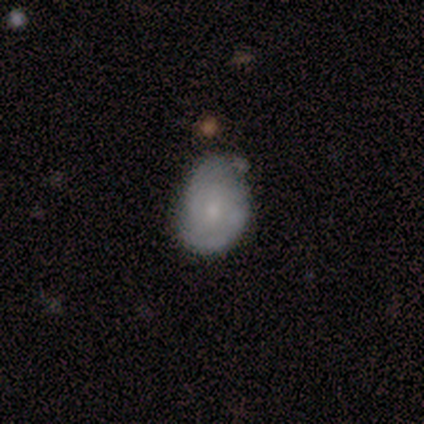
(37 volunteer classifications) This is possibly a featured or disk galaxy (46%). It is clearly not viewed edge-on (94%). Bar: likely no (69%). Spiral arm pattern: possibly yes (56%). Spiral arm count: likely 2 (67%). Spiral winding: marginally medium (44%). Central bulge: likely small (62%). Merging: possibly none (48%, tied with minor disturbance).